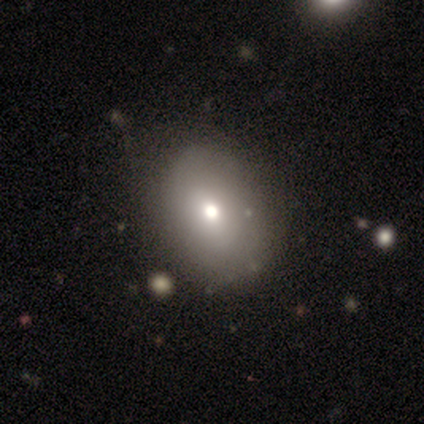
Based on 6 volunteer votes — Q: Smooth or featured?
A: smooth (83%); runner-up: featured or disk (17%)
Q: How rounded?
A: in between (100%)
Q: Merging?
A: none (67%); runner-up: minor disturbance (33%)